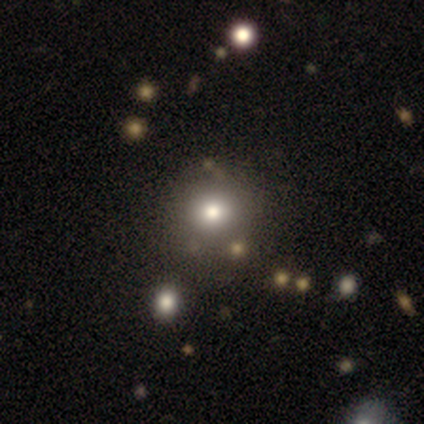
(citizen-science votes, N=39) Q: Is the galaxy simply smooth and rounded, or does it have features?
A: smooth — 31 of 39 (79%).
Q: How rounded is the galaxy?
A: round — 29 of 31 (94%).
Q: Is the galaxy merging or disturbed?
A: none — 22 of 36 (61%).